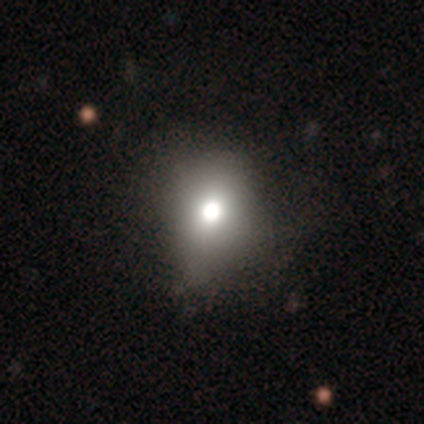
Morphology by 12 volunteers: This is likely a smooth galaxy (67%). How rounded: possibly round (50%, tied with in between). Merging: likely none (64%).